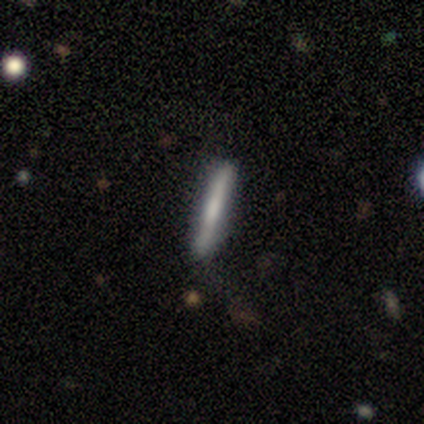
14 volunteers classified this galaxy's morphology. Smooth or featured? smooth (64%)
How rounded? cigar-shaped (100%)
Merging? none (86%)